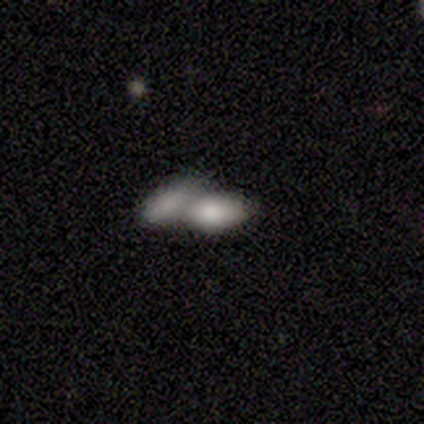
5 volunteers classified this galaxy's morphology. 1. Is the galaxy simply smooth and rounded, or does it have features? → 80% smooth, 20% featured or disk, 0% star or artifact.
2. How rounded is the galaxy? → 100% in between, 0% round, 0% cigar-shaped.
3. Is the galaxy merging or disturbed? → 100% merger, 0% none, 0% minor disturbance, 0% major disturbance.